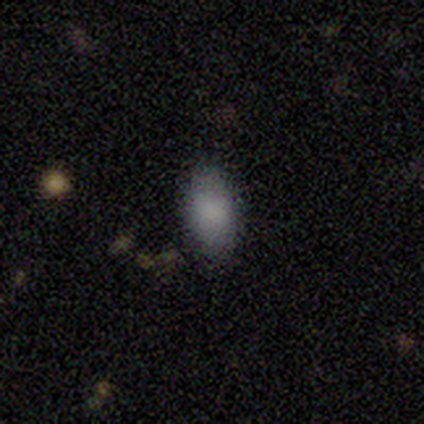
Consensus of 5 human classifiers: Volunteers were most divided on "merging": none: 75%, minor disturbance: 25%, major disturbance: 0%, merger: 0%. More confident: how rounded — in between (100%); smooth or featured — smooth (80%).